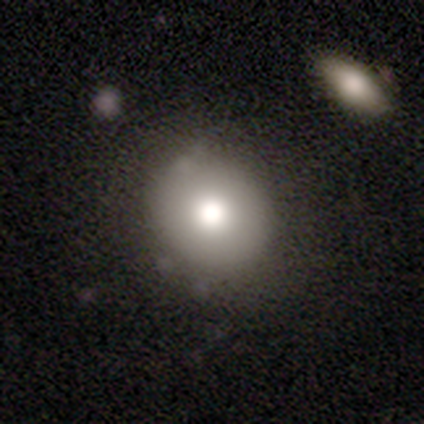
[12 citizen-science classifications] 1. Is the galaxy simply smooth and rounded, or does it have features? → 83% smooth, 17% star or artifact, 0% featured or disk.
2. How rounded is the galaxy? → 90% round, 10% in between, 0% cigar-shaped.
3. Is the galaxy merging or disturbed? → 80% none, 10% minor disturbance, 10% major disturbance, 0% merger.